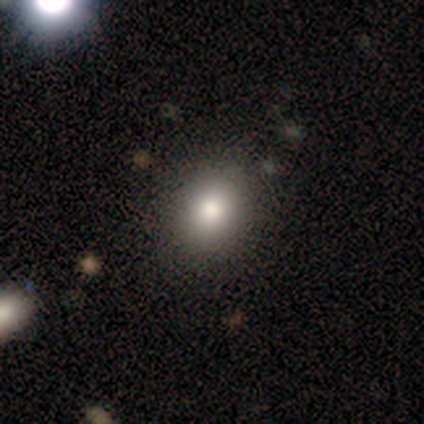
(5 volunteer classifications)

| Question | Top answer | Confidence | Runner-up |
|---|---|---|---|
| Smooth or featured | smooth | 40% | tied: star or artifact (40%) |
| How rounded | round | 100% | — |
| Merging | none | 100% | — |